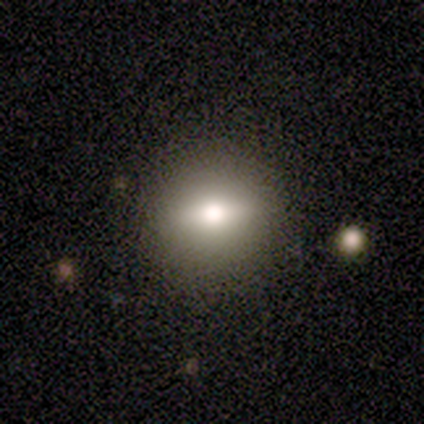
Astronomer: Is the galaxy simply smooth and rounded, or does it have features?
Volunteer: smooth — 40%, tied with featured or disk at 40%.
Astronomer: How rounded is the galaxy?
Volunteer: round — 50%, tied with in between at 50%.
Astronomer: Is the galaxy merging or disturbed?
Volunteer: none — 100%.